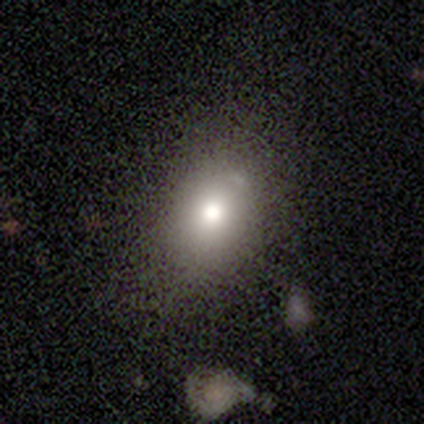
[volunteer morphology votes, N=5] A smooth galaxy with no disk features (80%) that is in between round and cigar-shaped (75%).

Vote fractions:
- Smooth or featured? smooth: 80% / star or artifact: 20% / featured or disk: 0%
- How rounded? in between: 75% / round: 25% / cigar-shaped: 0%
- Merging? minor disturbance: 50% / none: 25% / major disturbance: 25% / merger: 0%